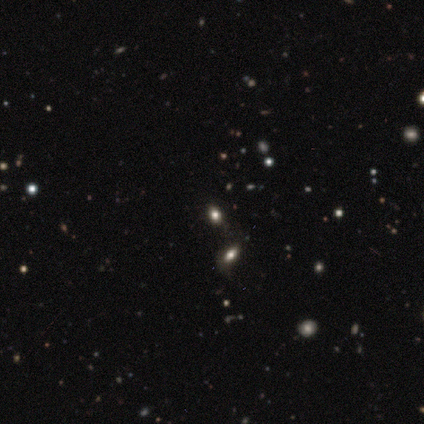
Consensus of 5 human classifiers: Q: Smooth or featured?
A: smooth (60%); runner-up: star or artifact (40%)
Q: How rounded?
A: in between (67%); runner-up: round (33%)
Q: Merging?
A: none (67%); runner-up: major disturbance (33%)